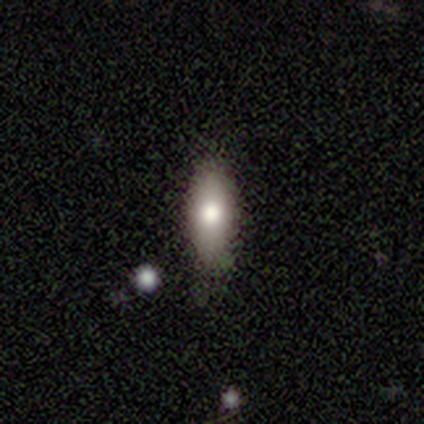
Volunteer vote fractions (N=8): Overall: smooth (100%). How rounded: in between (88%). Merging: none (75%).